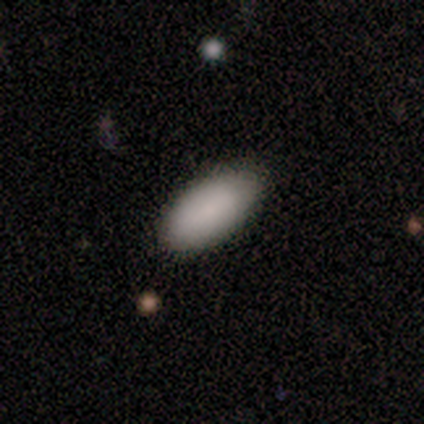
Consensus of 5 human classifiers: Smooth or featured: smooth — 100%
How rounded: in between — 80% (cigar-shaped — 20%)
Merging: none — 60% (minor disturbance — 40%)